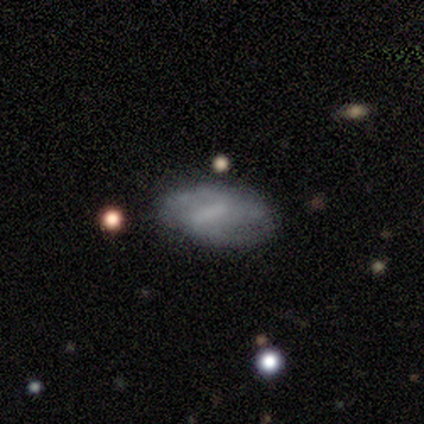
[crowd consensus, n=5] This is clearly a smooth galaxy (80%). How rounded: likely in between (75%). Merging: likely none (60%).